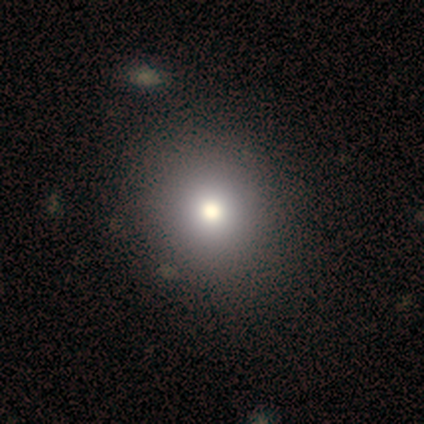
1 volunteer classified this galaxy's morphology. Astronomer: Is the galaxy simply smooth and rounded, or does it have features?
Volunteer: smooth — 100%.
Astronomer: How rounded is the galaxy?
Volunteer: round — 100%.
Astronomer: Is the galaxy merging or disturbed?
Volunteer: none — 100%.